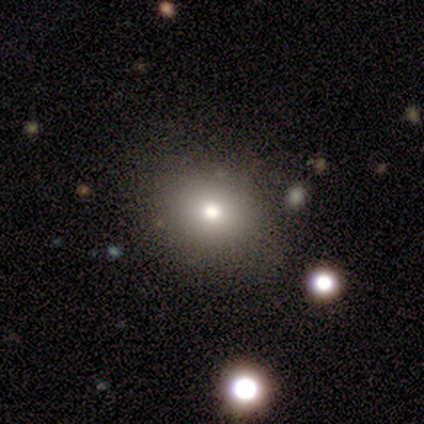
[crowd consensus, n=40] Smooth or featured?
  - smooth: 55% *
  - featured or disk: 22%
  - star or artifact: 22%
How rounded?
  - round: 64% *
  - in between: 36%
  - cigar-shaped: 0%
Merging?
  - none: 90% *
  - major disturbance: 6%
  - minor disturbance: 3%
  - merger: 0%